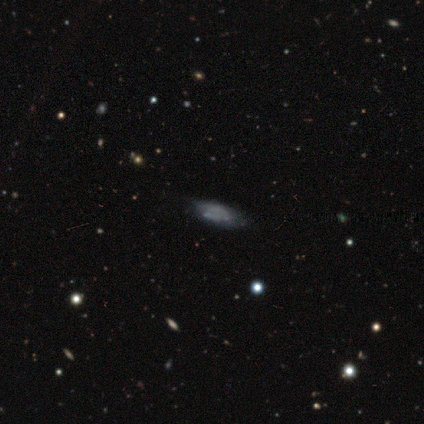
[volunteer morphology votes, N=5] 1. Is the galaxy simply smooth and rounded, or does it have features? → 40% featured or disk (tied), 40% star or artifact (tied), 20% smooth.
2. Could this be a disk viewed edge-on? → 100% no, 0% yes.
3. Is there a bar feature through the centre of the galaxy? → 100% no, 0% strong, 0% weak.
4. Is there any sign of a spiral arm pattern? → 50% yes (tied), 50% no (tied).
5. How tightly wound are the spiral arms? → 100% medium, 0% tight, 0% loose.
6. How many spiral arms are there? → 100% can't tell, 0% 1, 0% 2, 0% 3, 0% 4, 0% more than 4.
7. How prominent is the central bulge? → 100% none, 0% dominant, 0% large, 0% moderate, 0% small.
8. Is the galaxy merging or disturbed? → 33% none (tied), 33% minor disturbance (tied), 33% major disturbance (tied), 0% merger.